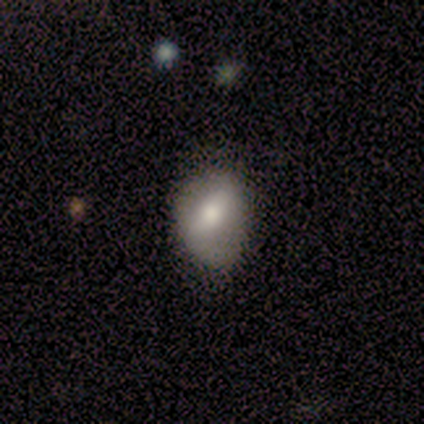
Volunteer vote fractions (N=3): This is likely a smooth galaxy (67%). How rounded: possibly round (50%, tied with in between). Merging: likely minor disturbance (67%).